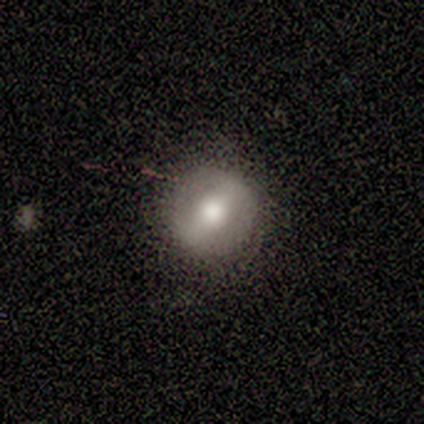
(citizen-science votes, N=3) A smooth galaxy with no disk features (67%) that is round (50%, tied with in between).

Vote fractions:
- Smooth or featured? smooth: 67% / featured or disk: 33% / star or artifact: 0%
- How rounded? round: 50% (tied) / in between: 50% (tied) / cigar-shaped: 0%
- Merging? none: 67% / minor disturbance: 33% / major disturbance: 0% / merger: 0%